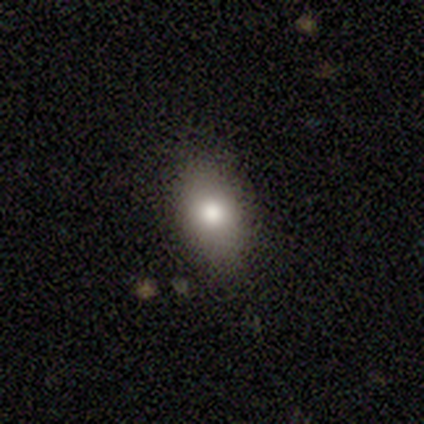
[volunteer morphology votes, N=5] smooth_or_featured: smooth (p=1.00)
how_rounded: in between (p=1.00)
merging: none (p=0.80) [alt: minor disturbance p=0.20]